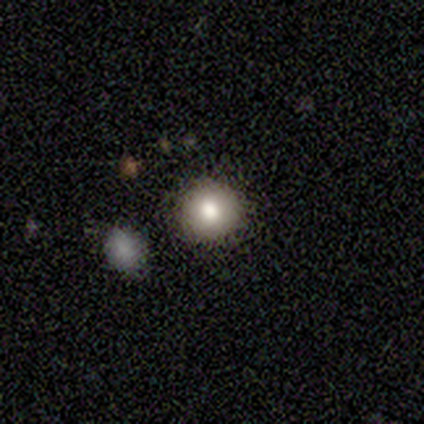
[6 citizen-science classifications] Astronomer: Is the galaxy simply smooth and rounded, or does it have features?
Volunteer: star or artifact — 50% (runner-up: featured or disk, 33%).